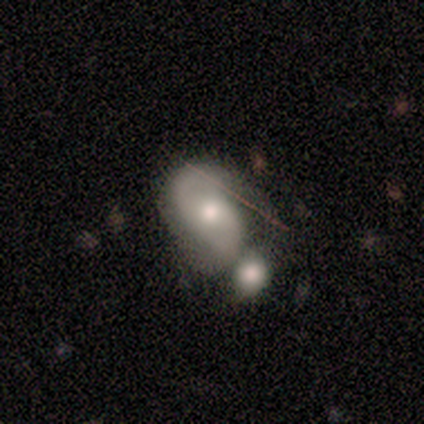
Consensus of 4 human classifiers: smooth-or-featured: featured or disk: 100% | smooth: 0% | star or artifact: 0%
  disk-edge-on: no: 100% | yes: 0%
    bar: no: 75% | weak: 25% | strong: 0%
    has-spiral-arms: yes: 100% | no: 0%
      spiral-winding: medium: 75% | loose: 25% | tight: 0%
      spiral-arm-count: 2: 100% | 1: 0% | 3: 0% | 4: 0% | more than 4: 0% | can't tell: 0%
    bulge-size: moderate: 75% | small: 25% | dominant: 0% | large: 0% | none: 0%
  merging: none: 50% | major disturbance: 25% | merger: 25% | minor disturbance: 0%